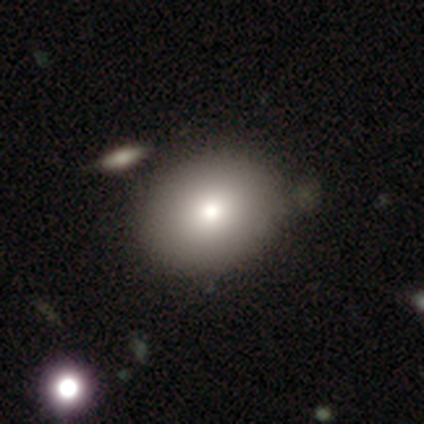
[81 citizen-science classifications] Overall: smooth (77%). How rounded: in between (55%; round 45%). Merging: none (85%).